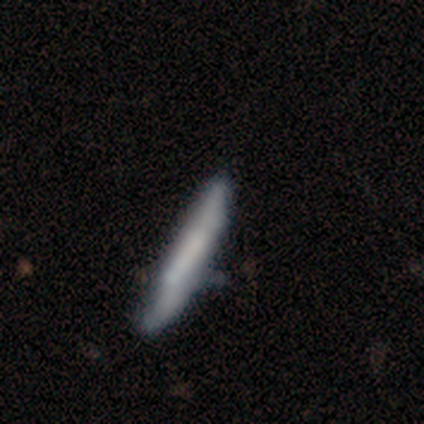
smooth-or-featured: featured or disk: 55% | smooth: 42% | star or artifact: 2%
  disk-edge-on: yes: 73% | no: 27%
    edge-on-bulge: boxy: 50% (tied) | none: 50% (tied) | rounded: 0%
  merging: none: 44% | minor disturbance: 23% | major disturbance: 0% | merger: 0%